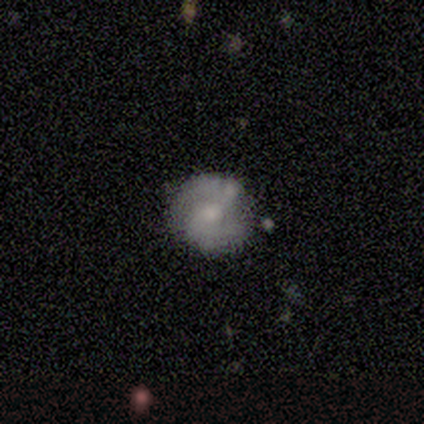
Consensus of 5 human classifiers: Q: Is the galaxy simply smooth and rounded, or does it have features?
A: featured or disk — 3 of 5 (60%).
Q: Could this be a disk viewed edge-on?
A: no — 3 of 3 (100%).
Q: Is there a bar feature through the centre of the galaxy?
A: no — 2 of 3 (67%).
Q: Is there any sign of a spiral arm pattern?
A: yes — 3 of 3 (100%).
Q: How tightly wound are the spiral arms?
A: tight — 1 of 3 (33%, tied with medium and loose).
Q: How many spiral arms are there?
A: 2 — 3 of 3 (100%).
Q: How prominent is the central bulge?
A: moderate — 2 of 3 (67%).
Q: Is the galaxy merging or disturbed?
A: none — 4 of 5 (80%).